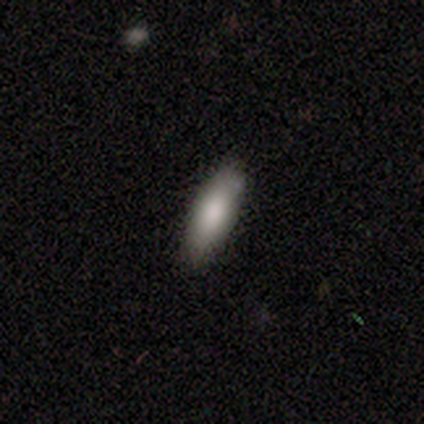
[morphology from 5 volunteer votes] This appears to be a smooth galaxy with no disk features (80%) that is in between round and cigar-shaped (75%). Merging: none (50%, tied with minor disturbance).